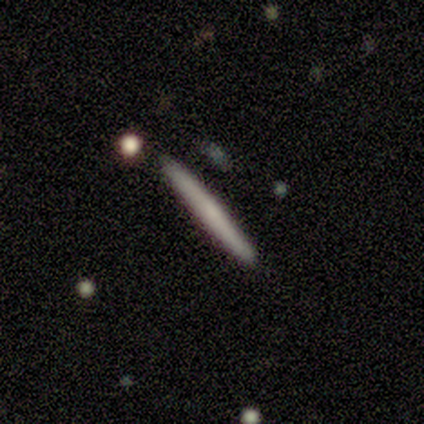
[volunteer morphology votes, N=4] smooth-or-featured: smooth: 75% | star or artifact: 25% | featured or disk: 0%
  how-rounded: cigar-shaped: 100% | round: 0% | in between: 0%
  merging: none: 100% | minor disturbance: 0% | major disturbance: 0% | merger: 0%